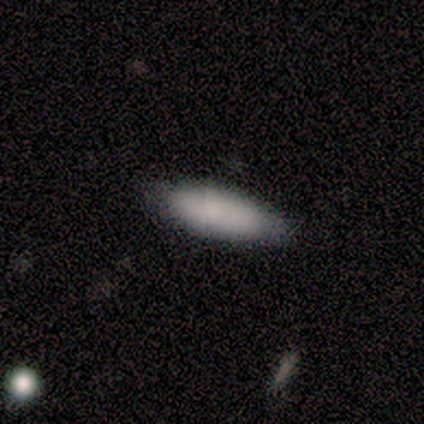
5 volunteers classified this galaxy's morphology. Overall: smooth (100%). How rounded: in between (80%). Merging: none (80%).